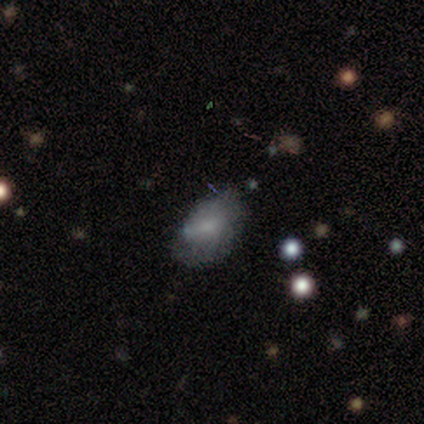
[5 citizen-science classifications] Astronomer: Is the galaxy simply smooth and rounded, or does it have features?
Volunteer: featured or disk — 80%.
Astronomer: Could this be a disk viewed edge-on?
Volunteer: no — 100%.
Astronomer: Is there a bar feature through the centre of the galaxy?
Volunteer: no — 75%.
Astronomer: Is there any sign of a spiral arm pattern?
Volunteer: no — 75%.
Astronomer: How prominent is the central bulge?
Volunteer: moderate — 50%.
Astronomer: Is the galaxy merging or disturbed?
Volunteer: minor disturbance — 60% (runner-up: none, 40%).